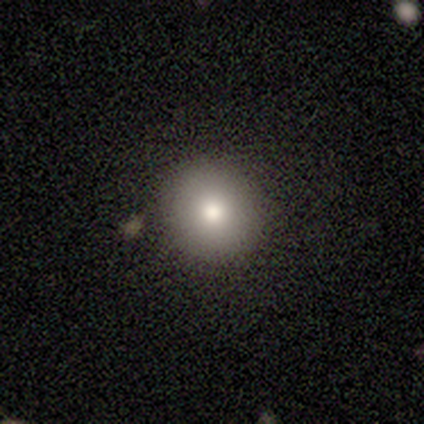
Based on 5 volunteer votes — Q: Smooth or featured?
A: smooth (80%); runner-up: featured or disk (20%)
Q: How rounded?
A: round (100%)
Q: Merging?
A: none (80%); runner-up: minor disturbance (20%)